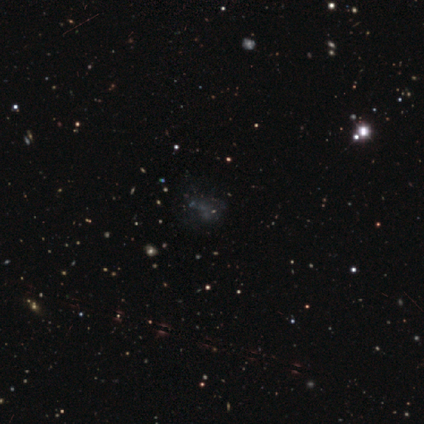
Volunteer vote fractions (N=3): Q: Smooth or featured?
A: star or artifact (67%); runner-up: smooth (33%)